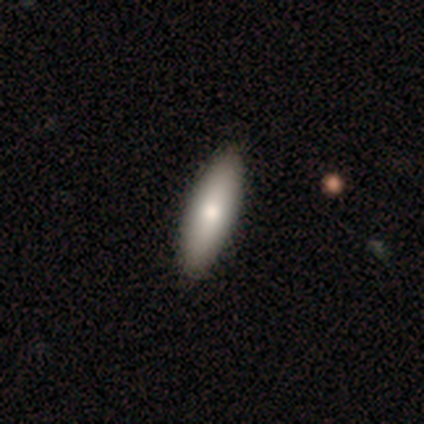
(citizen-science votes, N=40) smooth 82%, featured or disk 15%, star or artifact 2%. Down the decision tree: how rounded — in between (61%); merging — none (69%).